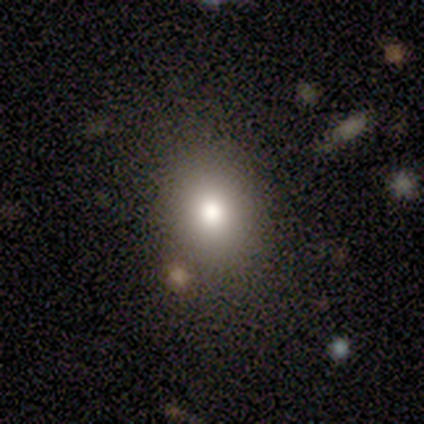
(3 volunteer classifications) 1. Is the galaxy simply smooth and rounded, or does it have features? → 67% smooth, 33% star or artifact, 0% featured or disk.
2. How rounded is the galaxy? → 100% in between, 0% round, 0% cigar-shaped.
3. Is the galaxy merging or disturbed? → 100% none, 0% minor disturbance, 0% major disturbance, 0% merger.